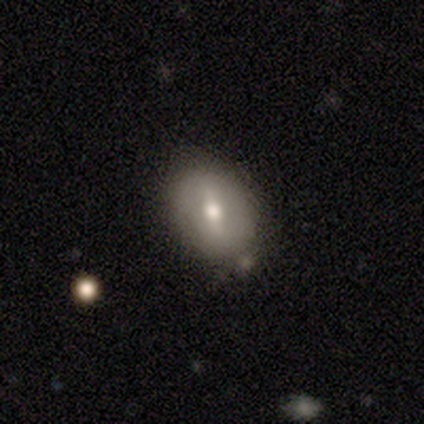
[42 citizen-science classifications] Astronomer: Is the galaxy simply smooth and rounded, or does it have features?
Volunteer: smooth — 55% (runner-up: featured or disk, 40%).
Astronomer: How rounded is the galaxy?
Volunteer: in between — 65%.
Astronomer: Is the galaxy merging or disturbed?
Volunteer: none — 62%.